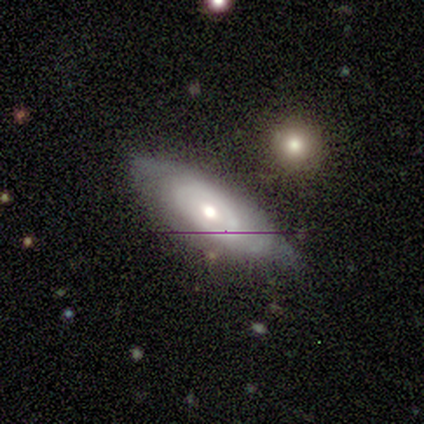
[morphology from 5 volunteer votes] Q: Smooth or featured?
A: featured or disk (60%); runner-up: smooth (40%)
Q: Edge-on disk?
A: no (100%)
Q: Bar?
A: no (67%); runner-up: weak (33%)
Q: Spiral arms?
A: yes (67%); runner-up: no (33%)
Q: Spiral winding?
A: tight (100%)
Q: Spiral arm count?
A: 2 (100%)
Q: Bulge size?
A: large (33%); tied with: moderate (33%); small (33%)
Q: Merging?
A: none (60%); runner-up: minor disturbance (20%)